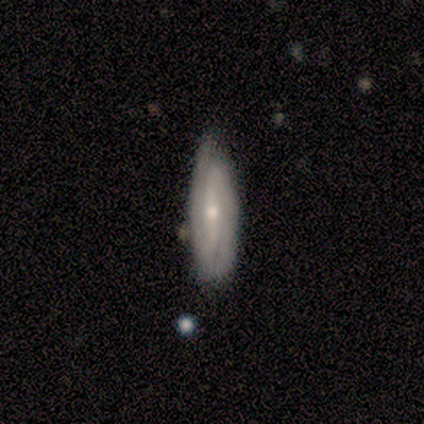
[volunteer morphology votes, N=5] This is clearly a featured or disk galaxy (100%). It is clearly not viewed edge-on (80%). Bar: likely strong (75%). Spiral arm pattern: clearly yes (100%). Spiral arm count: clearly 2 (100%). Spiral winding: possibly medium (50%). Central bulge: likely moderate (75%). Merging: likely none (60%).